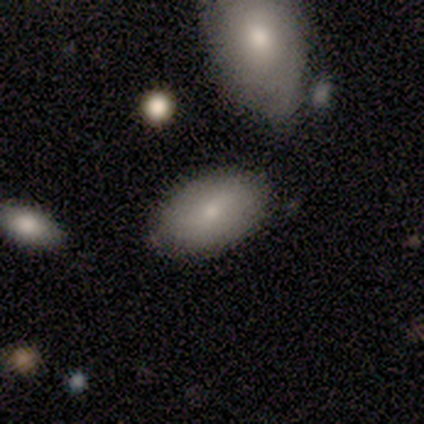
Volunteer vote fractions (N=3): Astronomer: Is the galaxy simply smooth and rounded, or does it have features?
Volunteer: smooth — 100%.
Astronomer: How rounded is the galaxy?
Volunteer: in between — 100%.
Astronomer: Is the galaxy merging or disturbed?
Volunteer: none — 67%.